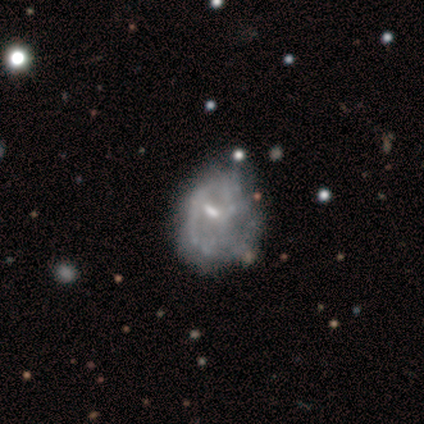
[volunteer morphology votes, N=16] A featured or disk galaxy (88%) with a weak bar (50%), medium (57%) spiral arms (50%, tied with no) and a small central bulge (50%).

Vote fractions:
- Smooth or featured? featured or disk: 88% / smooth: 6% / star or artifact: 6%
- Edge-on disk? no: 100% / yes: 0%
- Bar? weak: 50% / no: 29% / strong: 21%
- Spiral arms? yes: 50% (tied) / no: 50% (tied)
- Spiral winding? medium: 57% / loose: 29% / tight: 14%
- Spiral arm count? can't tell: 57% / 1: 29% / 2: 14% / 3: 0% / 4: 0% / more than 4: 0%
- Bulge size? small: 50% / none: 43% / moderate: 7% / dominant: 0% / large: 0%
- Merging? none: 47% / minor disturbance: 33% / major disturbance: 20% / merger: 0%